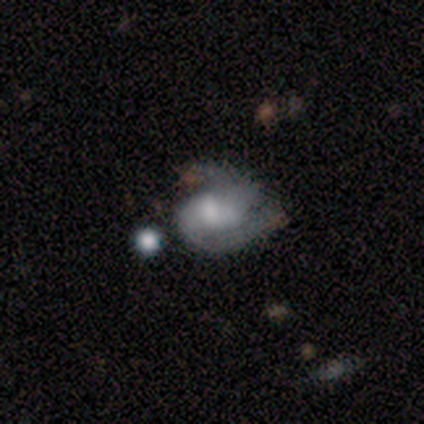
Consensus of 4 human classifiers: smooth-or-featured: smooth: 75% | featured or disk: 25% | star or artifact: 0%
  how-rounded: round: 67% | in between: 33% | cigar-shaped: 0%
  merging: major disturbance: 50% (tied) | merger: 50% (tied) | none: 0% | minor disturbance: 0%